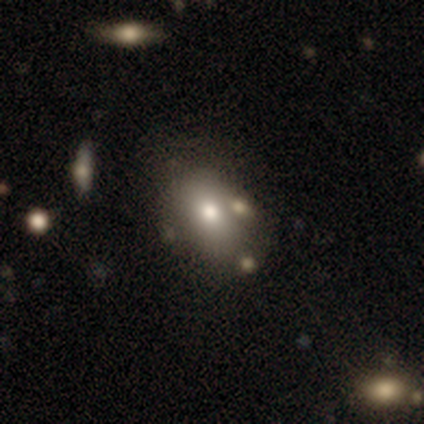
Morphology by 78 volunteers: Smooth or featured?
  - smooth: 67% *
  - featured or disk: 19%
  - star or artifact: 14%
How rounded?
  - in between: 83% *
  - round: 17%
  - cigar-shaped: 0%
Merging?
  - none: 36% *
  - merger: 22%
  - minor disturbance: 7%
  - major disturbance: 0%